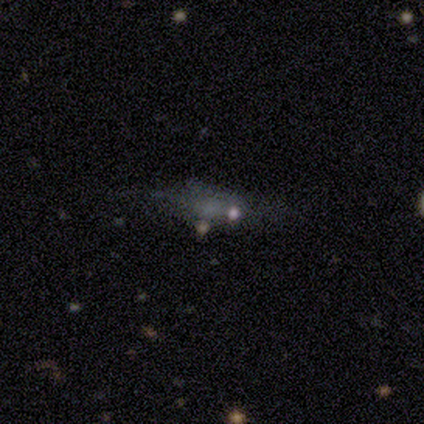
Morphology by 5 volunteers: smooth-or-featured: smooth: 60% | featured or disk: 20% | star or artifact: 20%
  how-rounded: in between: 100% | round: 0% | cigar-shaped: 0%
  merging: none: 50% | minor disturbance: 25% | merger: 25% | major disturbance: 0%